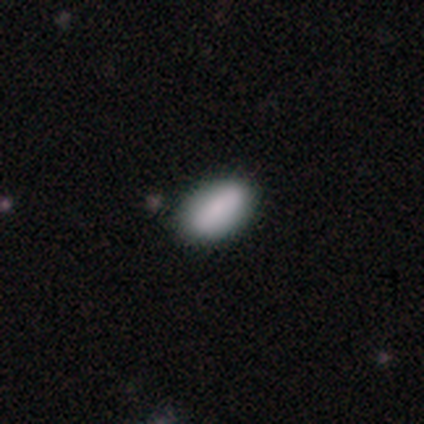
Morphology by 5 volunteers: Smooth or featured: smooth — 100%
How rounded: in between — 100%
Merging: none — 100%